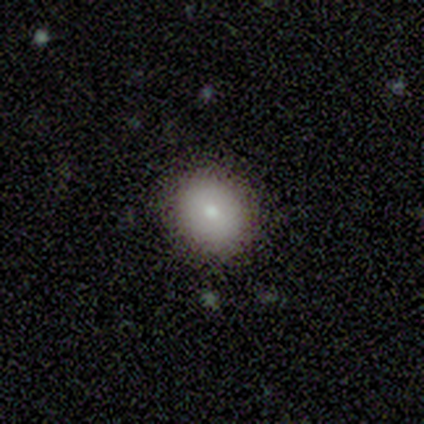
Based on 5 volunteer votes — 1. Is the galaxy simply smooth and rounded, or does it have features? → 80% smooth, 20% star or artifact, 0% featured or disk.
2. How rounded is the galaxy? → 75% round, 25% in between, 0% cigar-shaped.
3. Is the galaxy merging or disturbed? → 100% none, 0% minor disturbance, 0% major disturbance, 0% merger.